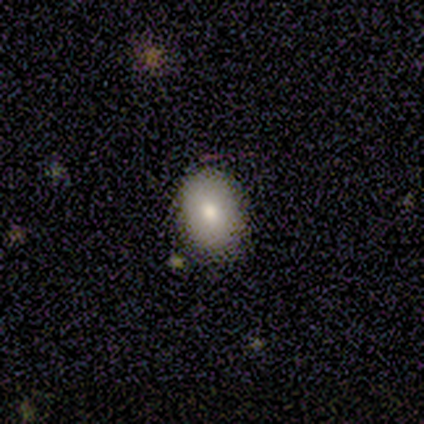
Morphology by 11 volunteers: Smooth or featured? smooth (91%)
How rounded? in between (80%)
Merging? none (100%)